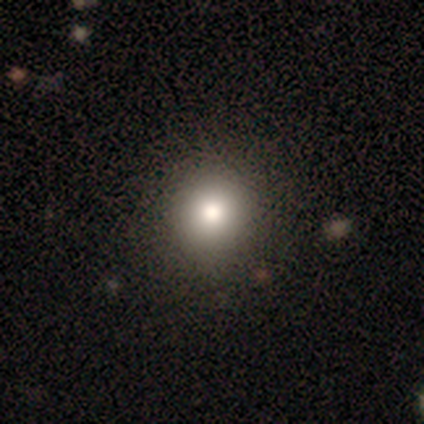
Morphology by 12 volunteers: A smooth galaxy with no disk features (67%) that is round (88%). Merging: none (92%).